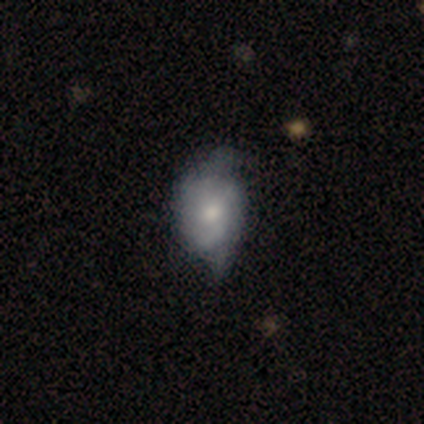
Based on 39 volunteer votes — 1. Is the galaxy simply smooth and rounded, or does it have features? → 51% smooth, 41% featured or disk, 8% star or artifact.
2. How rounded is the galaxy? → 60% in between, 35% round, 5% cigar-shaped.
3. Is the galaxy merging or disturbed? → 44% minor disturbance, 33% none, 19% major disturbance, 3% merger.